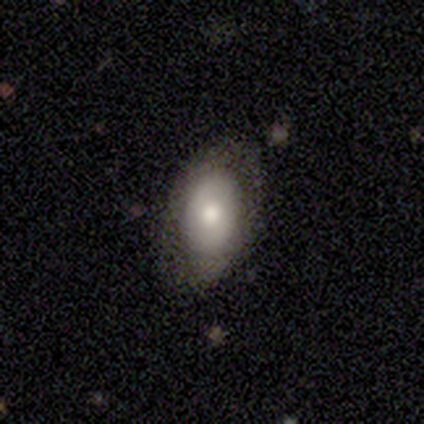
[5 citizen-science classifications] This is likely a smooth galaxy (60%). How rounded: clearly in between (100%). Merging: clearly none (80%).